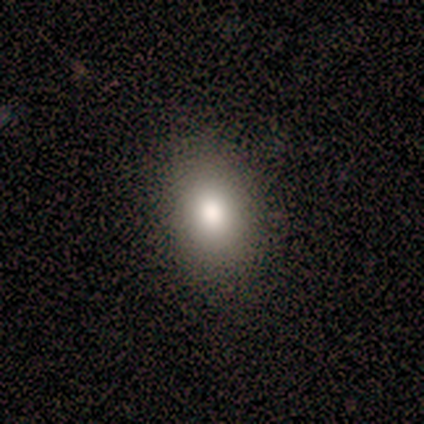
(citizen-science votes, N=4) featured or disk 50% (tied), star or artifact 50% (tied), smooth 0%. Down the decision tree: edge-on disk — no (100%); bar — no (100%); spiral arms — no (100%); bulge size — large (50%, tied with moderate); merging — none (100%).